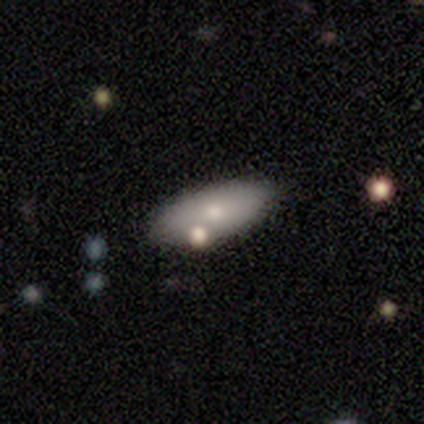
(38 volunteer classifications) Smooth or featured?
  - smooth: 61% *
  - featured or disk: 26%
  - star or artifact: 13%
How rounded?
  - in between: 96% *
  - cigar-shaped: 4%
  - round: 0%
Merging?
  - none: 61% *
  - minor disturbance: 21%
  - merger: 12%
  - major disturbance: 6%